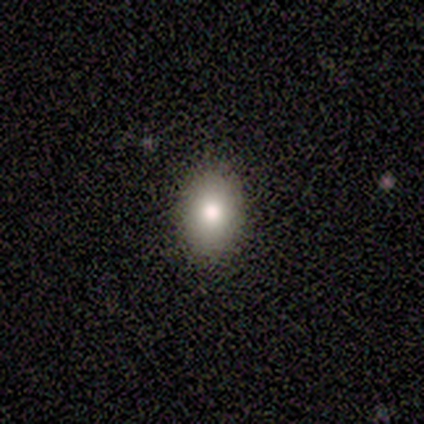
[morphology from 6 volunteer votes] Smooth or featured? smooth (100%)
How rounded? in between (67%)
Merging? none (100%)